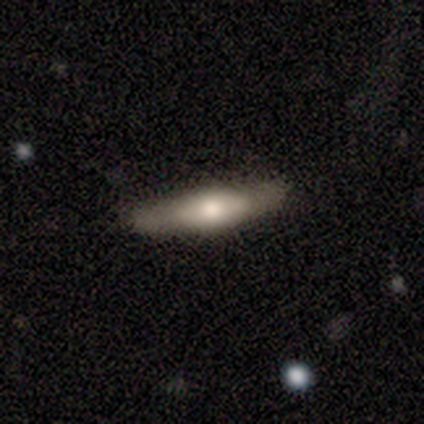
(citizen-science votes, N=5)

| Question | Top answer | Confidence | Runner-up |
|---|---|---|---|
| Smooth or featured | smooth | 80% | featured or disk (20%) |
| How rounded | in between | 50% | tied: cigar-shaped (50%) |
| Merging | none | 60% | minor disturbance (40%) |